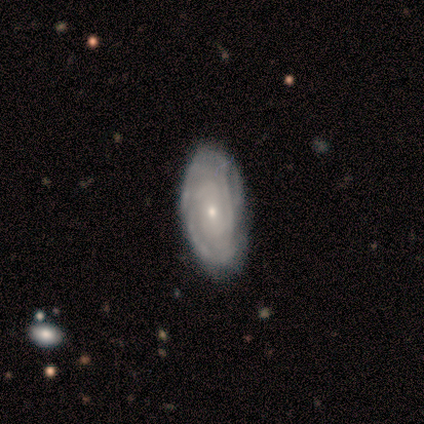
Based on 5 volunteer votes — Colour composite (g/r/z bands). It shows a featured or disk galaxy (100%) with no bar (80%), tight (80%) spiral arms (100%) and a small central bulge (100%). Merging: none (60%).